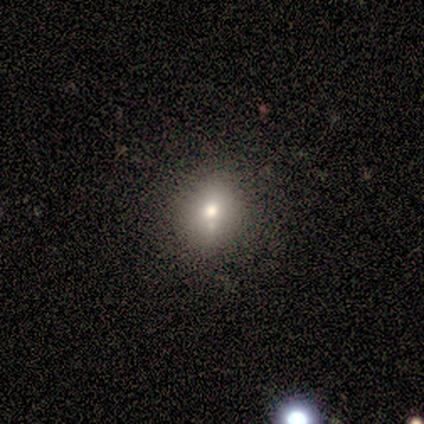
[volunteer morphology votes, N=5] Q: Smooth or featured?
A: smooth (60%); runner-up: star or artifact (40%)
Q: How rounded?
A: round (67%); runner-up: in between (33%)
Q: Merging?
A: none (100%)